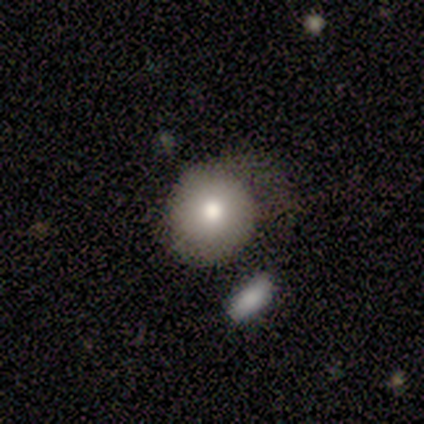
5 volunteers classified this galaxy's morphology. smooth-or-featured: smooth: 60% | featured or disk: 20% | star or artifact: 20%
  how-rounded: round: 100% | in between: 0% | cigar-shaped: 0%
  merging: none: 100% | minor disturbance: 0% | major disturbance: 0% | merger: 0%